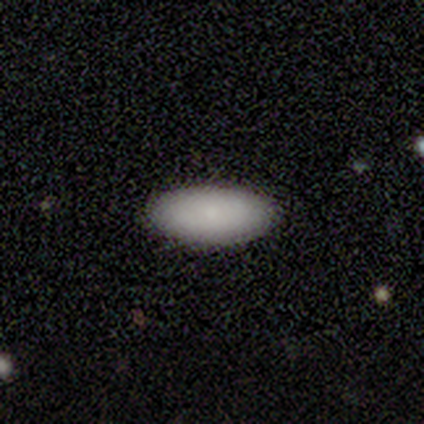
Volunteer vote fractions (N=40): smooth 92%, star or artifact 5%, featured or disk 2%. Down the decision tree: how rounded — in between (89%); merging — none (89%).